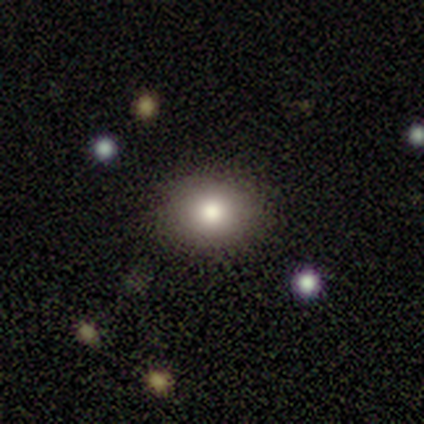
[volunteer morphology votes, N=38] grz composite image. It shows a smooth galaxy with no disk features (82%) that is round (52%). Merging: none (86%).